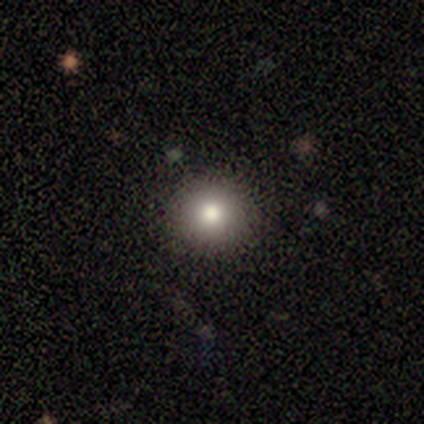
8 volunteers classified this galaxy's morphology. Smooth or featured?
  - smooth: 88% *
  - featured or disk: 12%
  - star or artifact: 0%
How rounded?
  - round: 100% *
  - in between: 0%
  - cigar-shaped: 0%
Merging?
  - none: 100% *
  - minor disturbance: 0%
  - major disturbance: 0%
  - merger: 0%